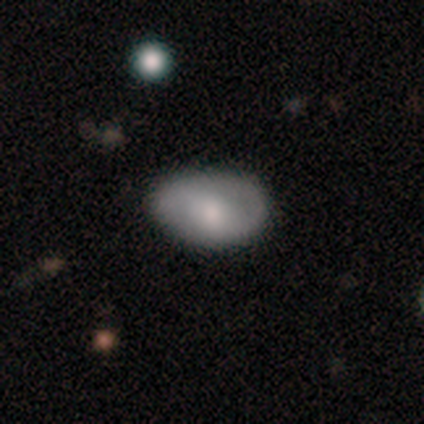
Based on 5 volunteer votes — This appears to be a featured or disk galaxy (60%) with no bar (100%), 1 (50%, tied with 2) tight (50%, tied with medium) spiral arms (67%) and a large central bulge (33%, tied with moderate and small). Merging: none (80%).